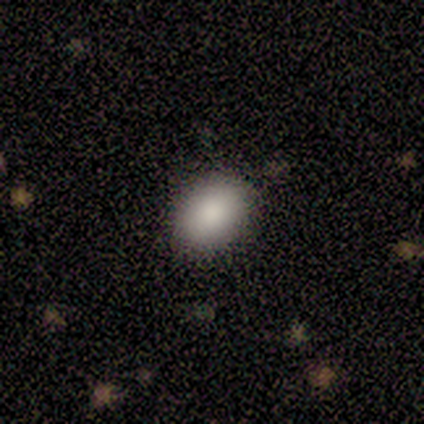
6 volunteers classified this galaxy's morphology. type=smooth (83%); roundness=in between (80%); merging=none (80%).